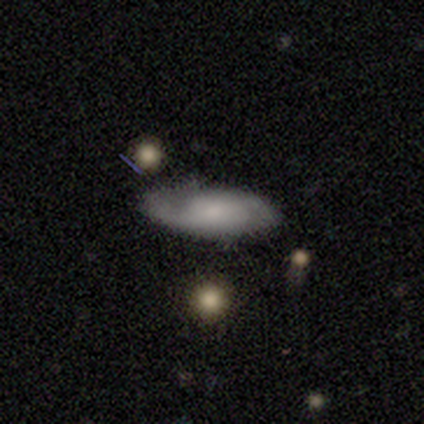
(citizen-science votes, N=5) Smooth or featured? featured or disk (100%)
Edge-on disk? no (100%)
Bar? no (80%)
Spiral arms? yes (100%)
Spiral winding? loose (60%)
Spiral arm count? 2 (80%)
Bulge size? large (40%)
Merging? none (100%)